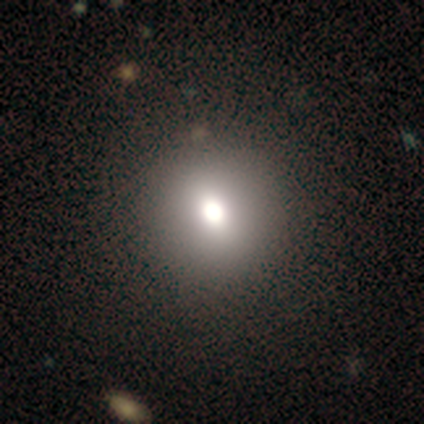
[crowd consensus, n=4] Volunteers were most divided on "bulge size" (2-way tie): large: 50%, moderate: 50%, dominant: 0%, small: 0%, none: 0%. More confident: edge-on disk — no (100%); bar — no (100%); spiral arms — no (100%); merging — none (67%); smooth or featured — featured or disk (50%).